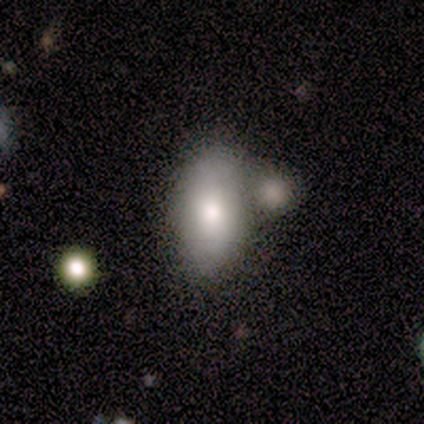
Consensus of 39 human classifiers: A smooth galaxy with no disk features (79%) that is in between round and cigar-shaped (84%). Merging: none (41%).